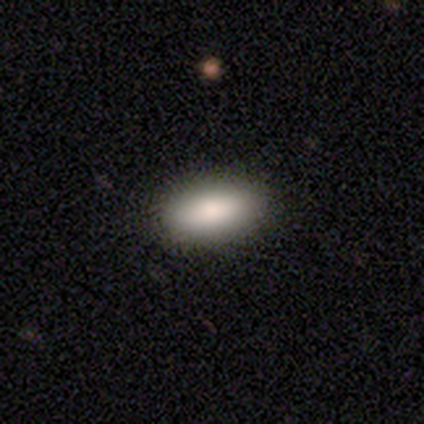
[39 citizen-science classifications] Smooth or featured?
  - smooth: 90% *
  - star or artifact: 10%
  - featured or disk: 0%
How rounded?
  - in between: 83% *
  - cigar-shaped: 14%
  - round: 3%
Merging?
  - none: 94% *
  - minor disturbance: 6%
  - major disturbance: 0%
  - merger: 0%